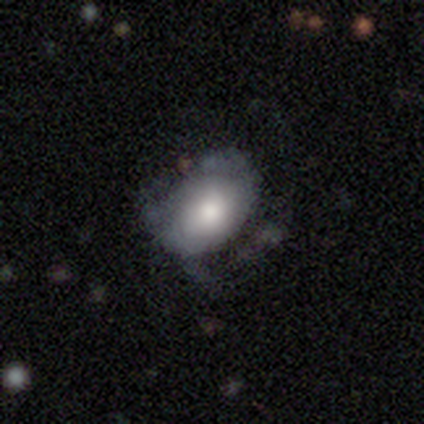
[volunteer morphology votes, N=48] Smooth or featured: smooth — 50% (featured or disk — 44%)
How rounded: in between — 92% (round — 4%)
Merging: none — 42% (minor disturbance — 29%)